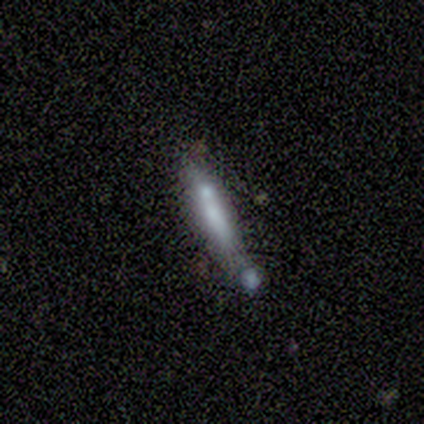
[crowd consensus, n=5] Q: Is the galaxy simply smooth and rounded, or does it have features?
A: smooth — 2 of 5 (40%, tied with featured or disk).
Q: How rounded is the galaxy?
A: cigar-shaped — 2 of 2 (100%).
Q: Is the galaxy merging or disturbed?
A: minor disturbance — 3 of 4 (75%).